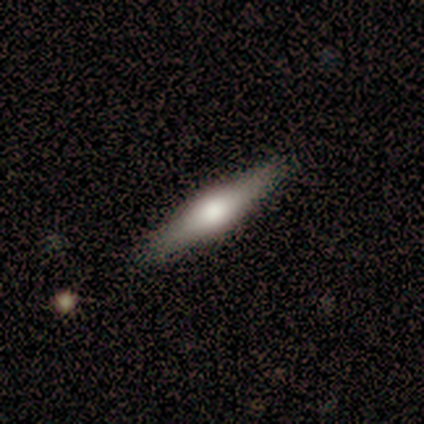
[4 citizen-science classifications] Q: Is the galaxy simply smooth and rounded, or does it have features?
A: smooth — 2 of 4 (50%, tied with featured or disk).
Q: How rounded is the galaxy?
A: cigar-shaped — 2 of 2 (100%).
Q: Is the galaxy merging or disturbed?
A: none — 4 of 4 (100%).